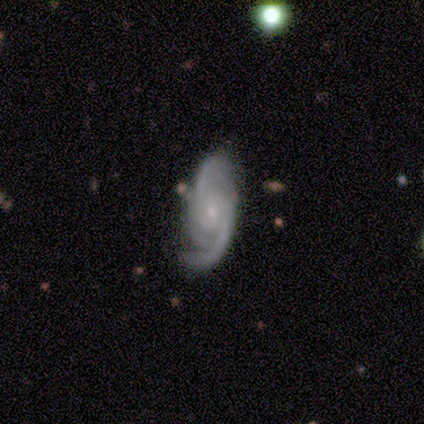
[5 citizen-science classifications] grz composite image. It shows a featured or disk galaxy (100%) with no bar (60%), 2 (60%) medium (60%) spiral arms (100%) and a small central bulge (100%). Merging: none (80%).